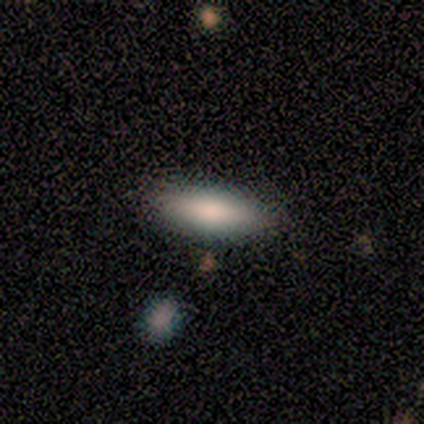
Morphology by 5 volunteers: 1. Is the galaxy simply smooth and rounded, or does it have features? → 100% smooth, 0% featured or disk, 0% star or artifact.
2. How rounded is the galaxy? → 60% in between, 40% cigar-shaped, 0% round.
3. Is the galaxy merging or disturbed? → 100% none, 0% minor disturbance, 0% major disturbance, 0% merger.